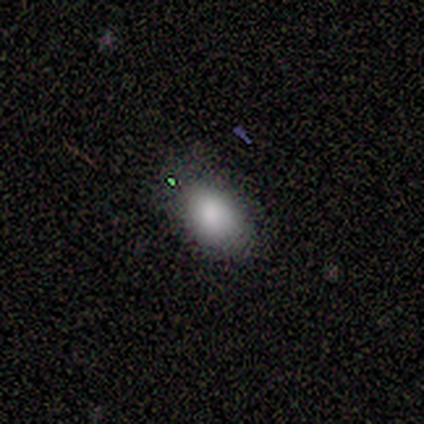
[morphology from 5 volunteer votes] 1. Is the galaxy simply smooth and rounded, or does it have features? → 100% smooth, 0% featured or disk, 0% star or artifact.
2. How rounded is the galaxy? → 80% in between, 20% round, 0% cigar-shaped.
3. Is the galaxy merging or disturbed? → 80% none, 20% major disturbance, 0% minor disturbance, 0% merger.